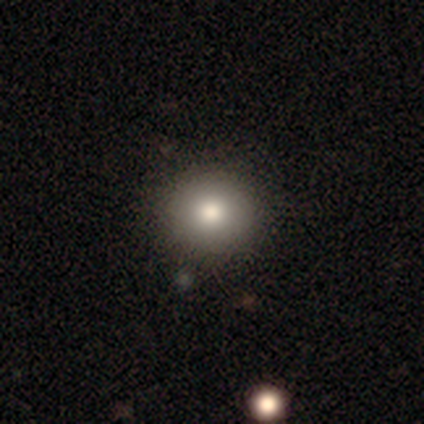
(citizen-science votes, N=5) smooth_or_featured: smooth (p=1.00)
how_rounded: round (p=1.00)
merging: none (p=1.00)